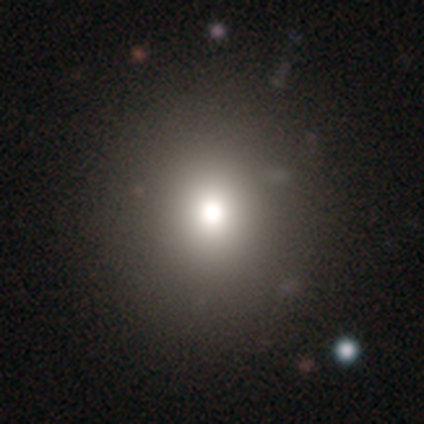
A smooth galaxy with no disk features (73%) that is round (82%). Merging: none (88%).